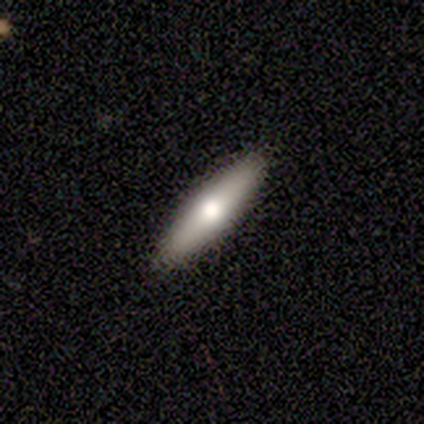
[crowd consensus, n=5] Morphology: type=smooth (100%); roundness=cigar-shaped (80%); merging=none (100%).